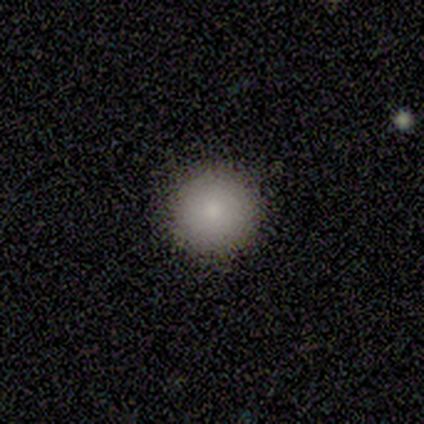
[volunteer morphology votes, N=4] type=smooth (100%); roundness=round (100%); merging=none (100%).